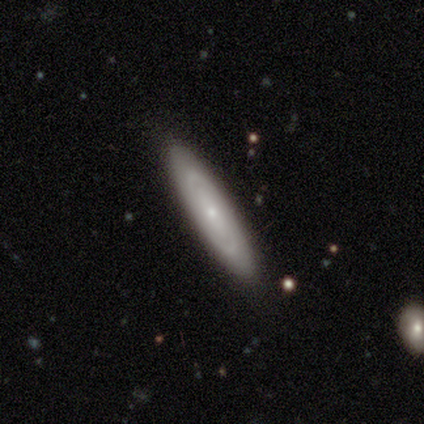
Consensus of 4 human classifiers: smooth 75%, star or artifact 25%, featured or disk 0%. Down the decision tree: how rounded — cigar-shaped (67%); merging — none (100%).